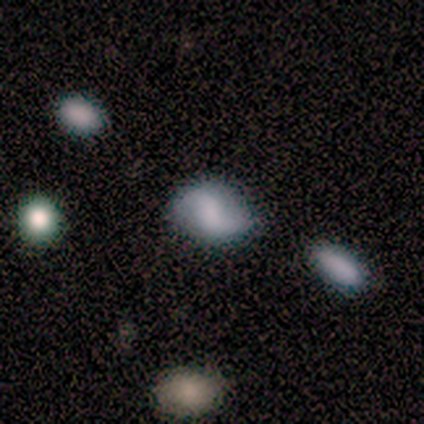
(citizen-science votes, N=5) featured or disk 80%, smooth 20%, star or artifact 0%. Down the decision tree: edge-on disk — no (100%); bar — no (50%); spiral arms — yes (50%, tied with no); spiral arm count — 2 (100%); spiral winding — loose (100%); bulge size — none (50%); merging — none (80%).